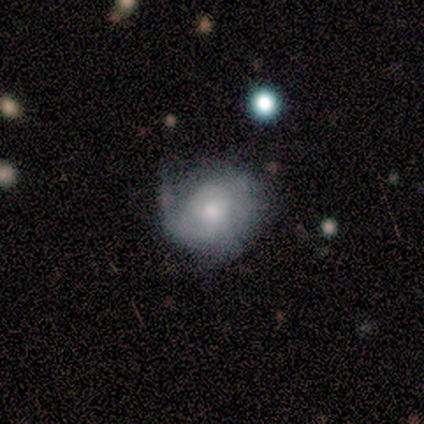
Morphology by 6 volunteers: A featured or disk galaxy (67%) with no bar (100%), medium (67%) spiral arms (75%) and a small central bulge (75%). Merging: minor disturbance (50%).